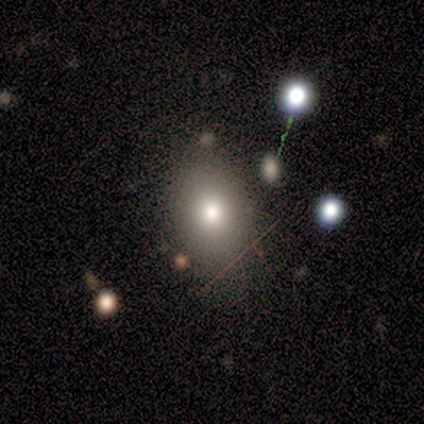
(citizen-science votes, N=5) smooth-or-featured: smooth: 60% | featured or disk: 40% | star or artifact: 0%
  how-rounded: in between: 100% | round: 0% | cigar-shaped: 0%
  merging: none: 60% | minor disturbance: 20% | major disturbance: 20% | merger: 0%